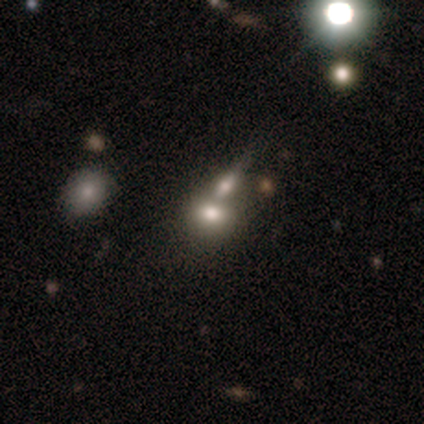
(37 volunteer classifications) smooth 65%, star or artifact 19%, featured or disk 16%. Down the decision tree: how rounded — in between (71%); merging — merger (57%).